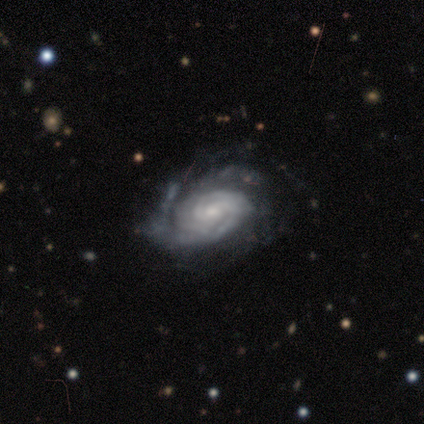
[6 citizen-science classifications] Smooth or featured: featured or disk — 83% (star or artifact — 17%)
Edge-on disk: no — 80% (yes — 20%)
Bar: no — 75% (weak — 25%)
Spiral arms: yes — 100%
Spiral winding: tight — 100%
Spiral arm count: 2 — 75% (can't tell — 25%)
Bulge size: small — 75% (moderate — 25%)
Merging: none — 60% (minor disturbance — 20%)